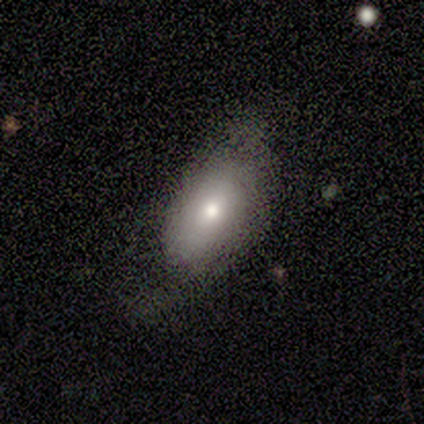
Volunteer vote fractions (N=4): A featured or disk galaxy (50%) viewed edge-on (50%, tied with no) with a rounded central bulge (100%). Merging: minor disturbance (67%).